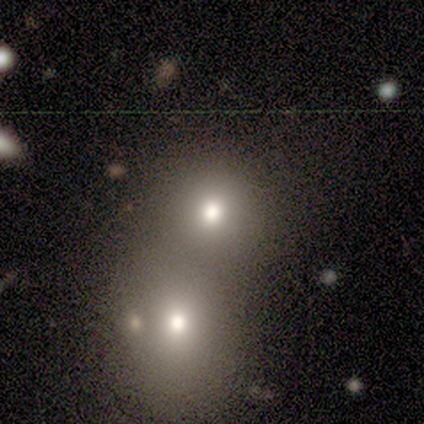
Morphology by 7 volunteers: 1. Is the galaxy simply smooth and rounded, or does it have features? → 86% smooth, 14% featured or disk, 0% star or artifact.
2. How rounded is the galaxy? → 83% round, 17% in between, 0% cigar-shaped.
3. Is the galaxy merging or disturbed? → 57% merger, 43% none, 0% minor disturbance, 0% major disturbance.